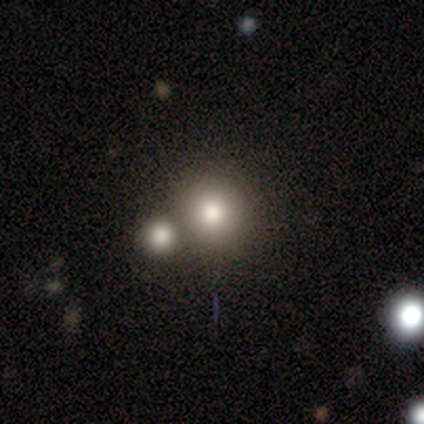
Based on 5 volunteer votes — This appears to be a smooth galaxy with no disk features (60%) that is round (100%). Merging: none (50%, tied with merger).